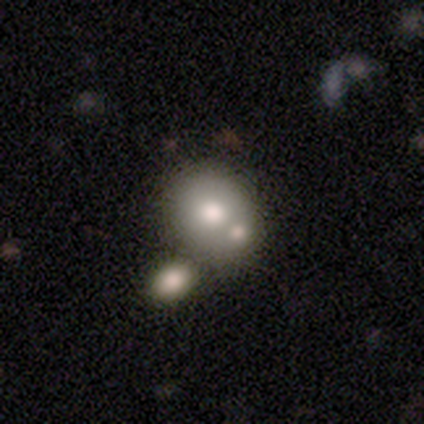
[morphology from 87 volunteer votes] smooth 56%, featured or disk 31%, star or artifact 13%. Down the decision tree: how rounded — round (69%); merging — merger (54%).